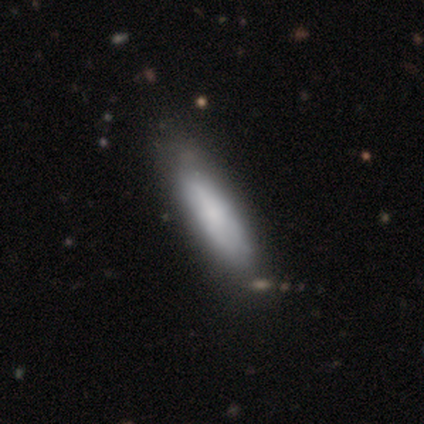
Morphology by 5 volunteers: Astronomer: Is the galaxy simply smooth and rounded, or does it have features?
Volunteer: smooth — 80%.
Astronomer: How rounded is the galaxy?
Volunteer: in between — 50%, tied with cigar-shaped at 50%.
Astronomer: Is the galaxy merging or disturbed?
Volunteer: none — 60%.